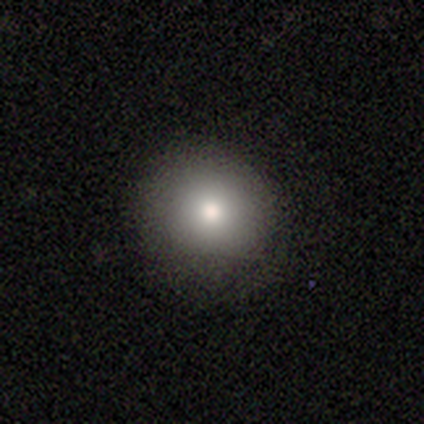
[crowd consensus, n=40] This appears to be a smooth galaxy with no disk features (92%) that is round (86%). Merging: none (88%).